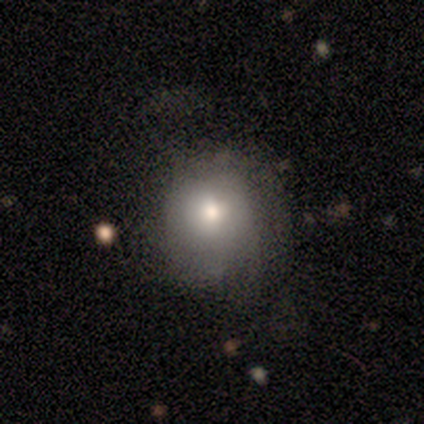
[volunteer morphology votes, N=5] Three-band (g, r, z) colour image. It shows a smooth galaxy with no disk features (100%) that is round (80%). Merging: none (60%).